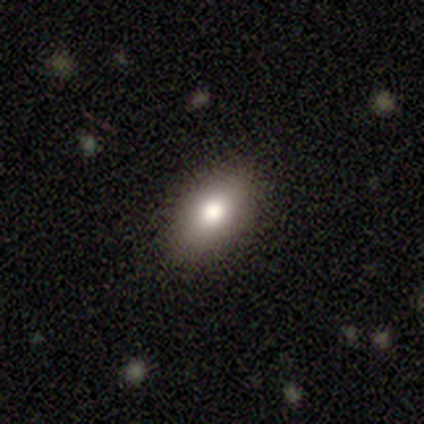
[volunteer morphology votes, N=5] Smooth or featured?
  - smooth: 80% *
  - featured or disk: 20%
  - star or artifact: 0%
How rounded?
  - in between: 100% *
  - round: 0%
  - cigar-shaped: 0%
Merging?
  - none: 100% *
  - minor disturbance: 0%
  - major disturbance: 0%
  - merger: 0%